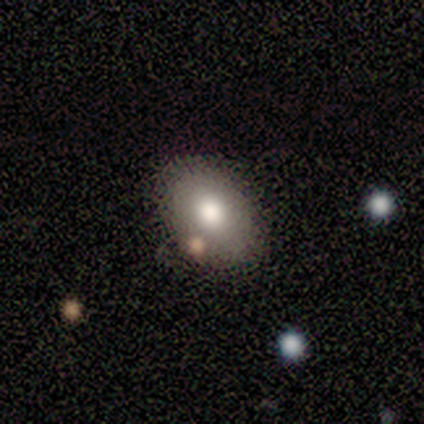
Morphology: type=smooth (100%); roundness=in between (83%); merging=none (83%).